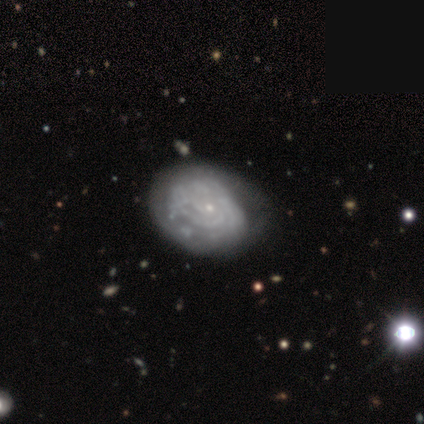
Smooth or featured?
  - featured or disk: 92% *
  - smooth: 8%
  - star or artifact: 0%
Edge-on disk?
  - no: 96% *
  - yes: 4%
Bar?
  - no: 93% *
  - weak: 7%
  - strong: 0%
Spiral arms?
  - yes: 89% *
  - no: 11%
Spiral winding?
  - tight: 85% *
  - medium: 15%
  - loose: 0%
Spiral arm count?
  - can't tell: 54% *
  - 3: 17%
  - 2: 15%
  - 4: 15%
  - 1: 0%
  - more than 4: 0%
Bulge size?
  - small: 87% *
  - moderate: 11%
  - none: 2%
  - dominant: 0%
  - large: 0%
Merging?
  - none: 52% *
  - minor disturbance: 35%
  - major disturbance: 12%
  - merger: 2%